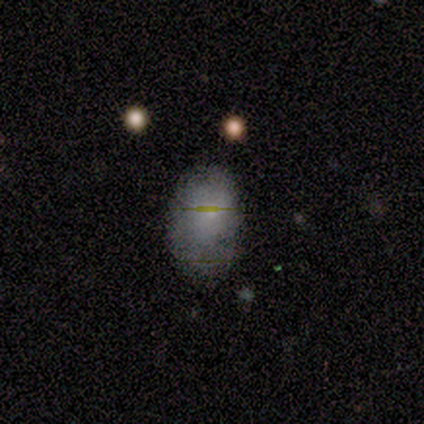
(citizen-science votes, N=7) Smooth or featured? 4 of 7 (57%) said smooth. How rounded? 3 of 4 (75%) said in between. Merging? 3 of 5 (60%) said none.